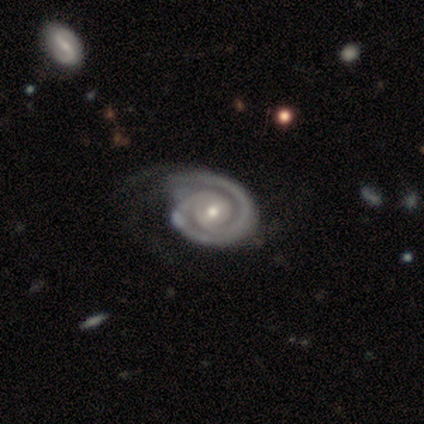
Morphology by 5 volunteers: This appears to be a featured or disk galaxy (80%) with a strong bar (33%, tied with weak and no), 1 (33%, tied with 2 and 3) tight (100%) spiral arms (100%) and a moderate central bulge (100%). Merging: none (40%, tied with minor disturbance).